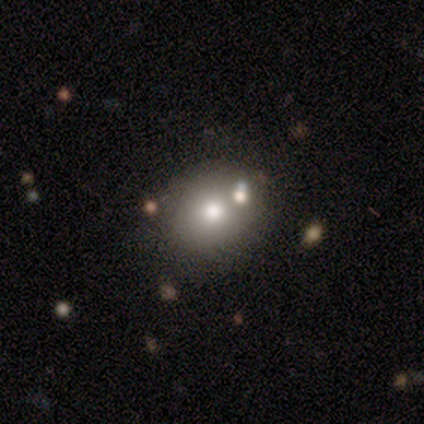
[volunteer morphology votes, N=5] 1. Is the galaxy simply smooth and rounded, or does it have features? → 60% smooth, 20% featured or disk, 20% star or artifact.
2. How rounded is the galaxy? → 100% round, 0% in between, 0% cigar-shaped.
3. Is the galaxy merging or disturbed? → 50% none, 25% minor disturbance, 25% merger, 0% major disturbance.